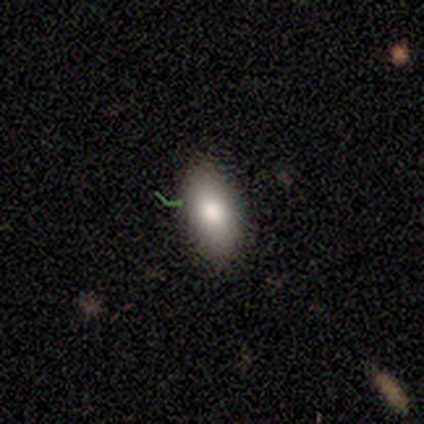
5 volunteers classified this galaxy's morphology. Consensus on every question: smooth or featured — smooth (100%); how rounded — in between (100%); merging — none (100%).